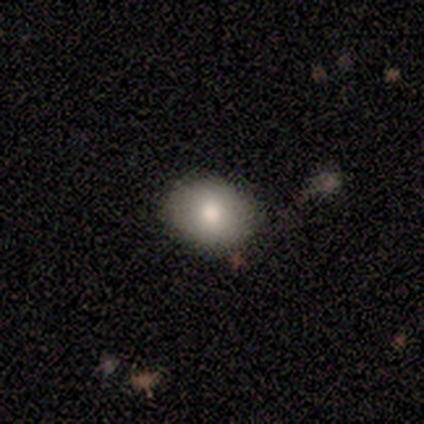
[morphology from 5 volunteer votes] Smooth or featured? smooth (100%)
How rounded? round (60%)
Merging? none (100%)